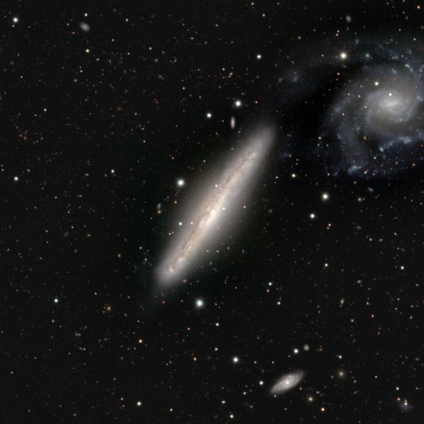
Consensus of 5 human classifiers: Q: Smooth or featured?
A: featured or disk (100%)
Q: Edge-on disk?
A: yes (80%); runner-up: no (20%)
Q: Edge-on bulge?
A: none (75%); runner-up: boxy (25%)
Q: Merging?
A: none (80%); runner-up: merger (20%)